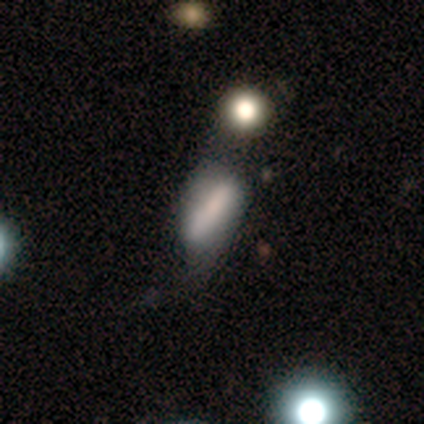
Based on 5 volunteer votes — smooth-or-featured: smooth: 100% | featured or disk: 0% | star or artifact: 0%
  how-rounded: in between: 80% | cigar-shaped: 20% | round: 0%
  merging: minor disturbance: 80% | none: 20% | major disturbance: 0% | merger: 0%